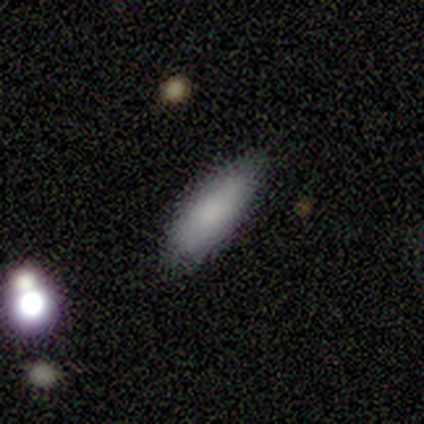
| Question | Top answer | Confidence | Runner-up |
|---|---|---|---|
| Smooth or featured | smooth | 75% | featured or disk (25%) |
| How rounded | in between | 67% | cigar-shaped (33%) |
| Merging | none | 100% | — |